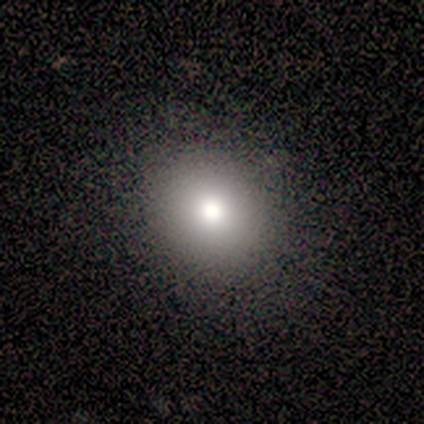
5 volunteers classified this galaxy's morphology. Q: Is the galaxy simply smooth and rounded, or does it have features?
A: smooth — 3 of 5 (60%).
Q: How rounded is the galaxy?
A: round — 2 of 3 (67%).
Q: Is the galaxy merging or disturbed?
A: none — 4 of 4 (100%).